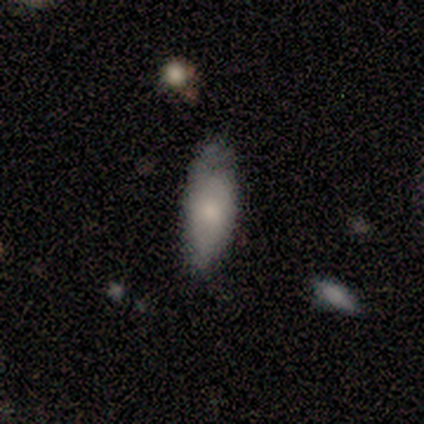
Smooth or featured: smooth — 75% (featured or disk — 22%)
How rounded: in between — 67% (cigar-shaped — 30%)
Merging: none — 49% (tied with minor disturbance — 49%)